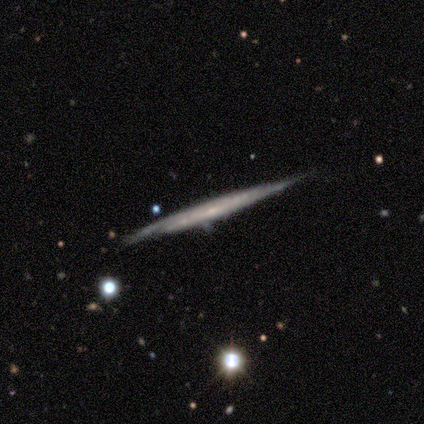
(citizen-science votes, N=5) A featured or disk galaxy (60%) viewed edge-on (100%) with no central bulge (100%).

Vote fractions:
- Smooth or featured? featured or disk: 60% / smooth: 40% / star or artifact: 0%
- Edge-on disk? yes: 100% / no: 0%
- Edge-on bulge? none: 100% / boxy: 0% / rounded: 0%
- Merging? none: 60% / major disturbance: 40% / minor disturbance: 0% / merger: 0%